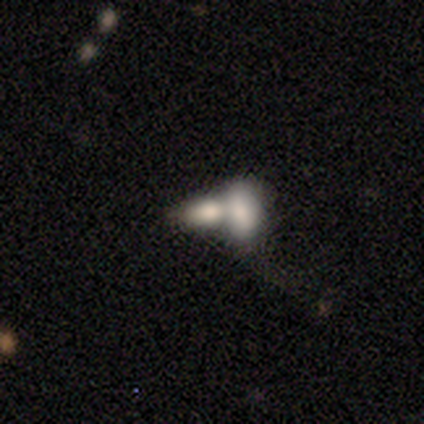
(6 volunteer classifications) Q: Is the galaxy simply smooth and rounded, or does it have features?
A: smooth — 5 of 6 (83%).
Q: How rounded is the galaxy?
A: in between — 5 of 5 (100%).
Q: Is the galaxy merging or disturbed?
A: merger — 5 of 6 (83%).